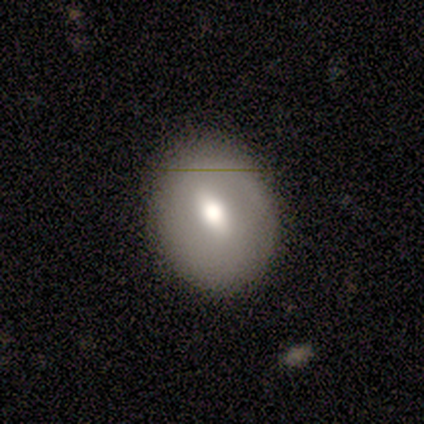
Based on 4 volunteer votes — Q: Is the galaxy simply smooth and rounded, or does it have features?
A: smooth — 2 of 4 (50%, tied with featured or disk).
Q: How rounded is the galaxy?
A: round — 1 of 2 (50%, tied with in between).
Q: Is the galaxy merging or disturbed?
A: none — 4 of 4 (100%).